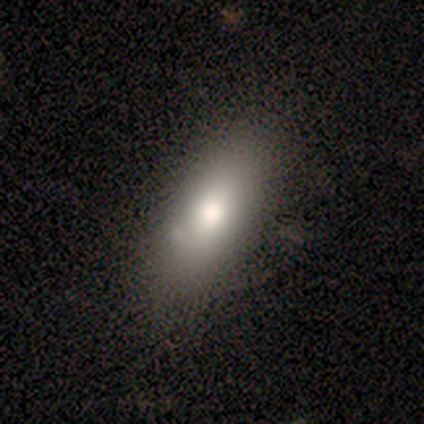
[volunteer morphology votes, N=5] Smooth or featured? 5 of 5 (100%) said smooth. How rounded? 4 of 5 (80%) said in between. Merging? 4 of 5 (80%) said none.